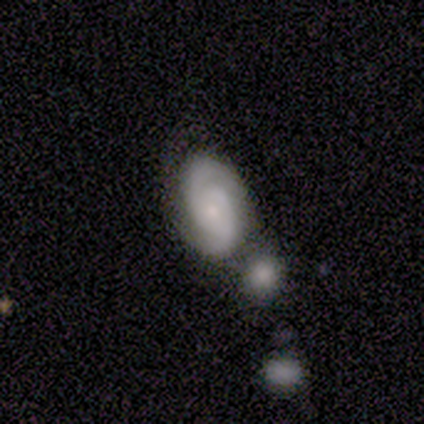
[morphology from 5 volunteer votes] type=featured or disk (80%); edge-on=no (100%); bar=weak (75%); spiral arms=yes (75%); winding=medium (67%); arm count=1 (33%, tied with 3 and can't tell); bulge=small (100%); merging=none (40%).